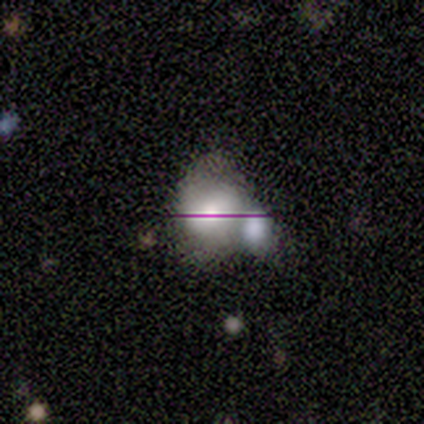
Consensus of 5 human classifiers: Q: Smooth or featured?
A: smooth (60%); runner-up: featured or disk (20%)
Q: How rounded?
A: in between (67%); runner-up: round (33%)
Q: Merging?
A: minor disturbance (75%); runner-up: none (25%)